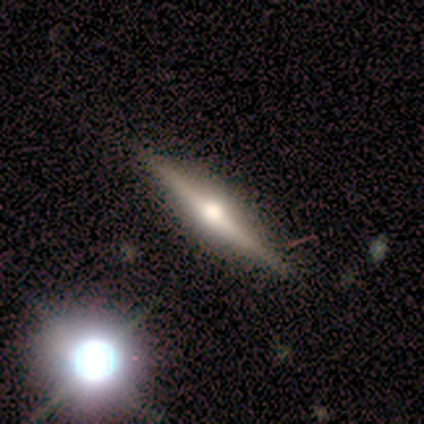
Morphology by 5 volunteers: Smooth or featured? 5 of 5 (100%) said featured or disk. Edge-on disk? 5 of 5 (100%) said yes. Edge-on bulge? 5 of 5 (100%) said rounded. Merging? 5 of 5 (100%) said none.